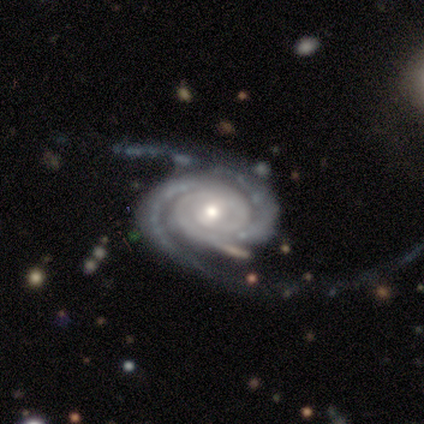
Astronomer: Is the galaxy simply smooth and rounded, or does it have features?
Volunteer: featured or disk — 100%.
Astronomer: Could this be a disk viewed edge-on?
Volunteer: no — 100%.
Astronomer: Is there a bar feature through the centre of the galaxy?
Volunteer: no — 67%.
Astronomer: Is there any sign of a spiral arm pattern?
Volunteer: yes — 100%.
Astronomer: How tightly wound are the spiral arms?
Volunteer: tight — 100%.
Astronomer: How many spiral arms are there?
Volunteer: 3 — 100%.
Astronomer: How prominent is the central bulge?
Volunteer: small — 100%.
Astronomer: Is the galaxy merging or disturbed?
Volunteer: none — 67%.